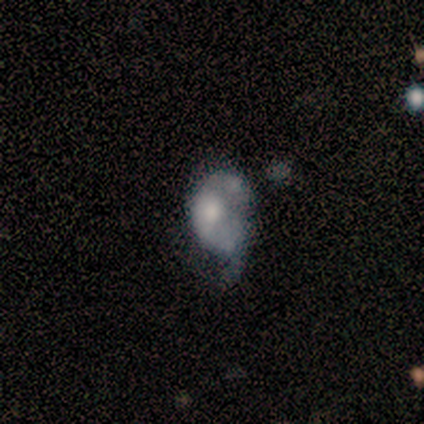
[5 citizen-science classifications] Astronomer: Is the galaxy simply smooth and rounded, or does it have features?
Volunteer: featured or disk — 80%.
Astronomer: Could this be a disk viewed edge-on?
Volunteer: no — 100%.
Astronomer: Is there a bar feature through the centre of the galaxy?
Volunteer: no — 100%.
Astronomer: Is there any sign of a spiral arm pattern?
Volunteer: no — 75%.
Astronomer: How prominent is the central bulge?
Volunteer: moderate — 100%.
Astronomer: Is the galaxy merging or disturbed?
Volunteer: minor disturbance — 60% (runner-up: major disturbance, 40%).